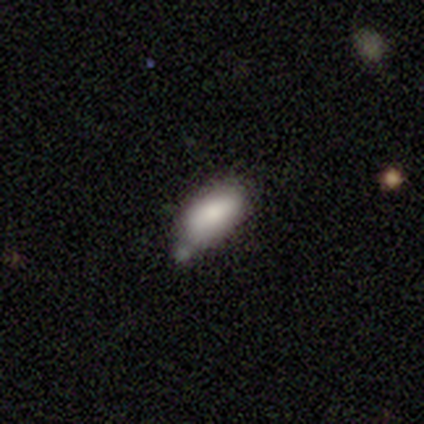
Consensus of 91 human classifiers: This appears to be a smooth galaxy with no disk features (80%) that is in between round and cigar-shaped (96%). Merging: minor disturbance (42%).